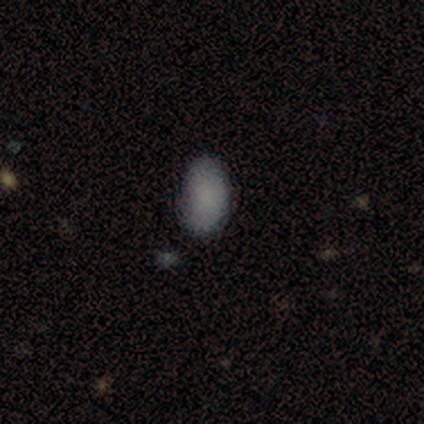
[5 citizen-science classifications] Overall: smooth (80%). How rounded: in between (75%). Merging: none (75%).